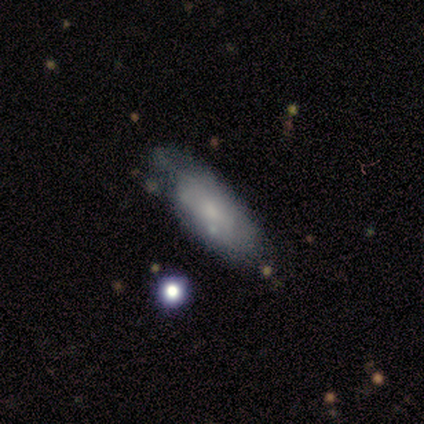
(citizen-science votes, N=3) Morphology: type=featured or disk (67%); edge-on=yes (50%, tied with no); edge-on bulge=boxy (100%); merging=none (33%, tied with minor disturbance and major disturbance).